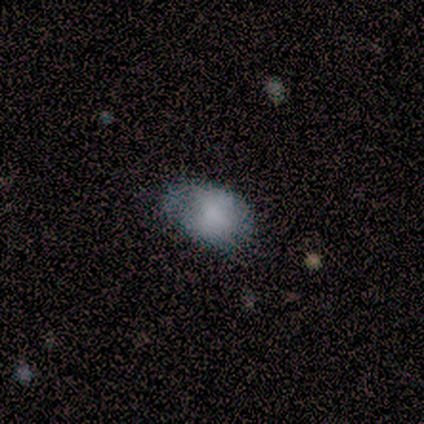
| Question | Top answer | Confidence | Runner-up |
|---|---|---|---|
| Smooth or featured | smooth | 80% | star or artifact (20%) |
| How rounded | in between | 100% | — |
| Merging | none | 50% | minor disturbance (25%) |